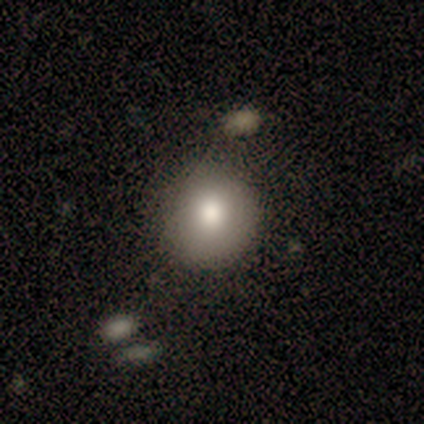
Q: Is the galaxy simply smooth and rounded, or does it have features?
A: smooth — 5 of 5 (100%).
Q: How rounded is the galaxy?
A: round — 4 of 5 (80%).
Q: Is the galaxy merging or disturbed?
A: none — 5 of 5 (100%).